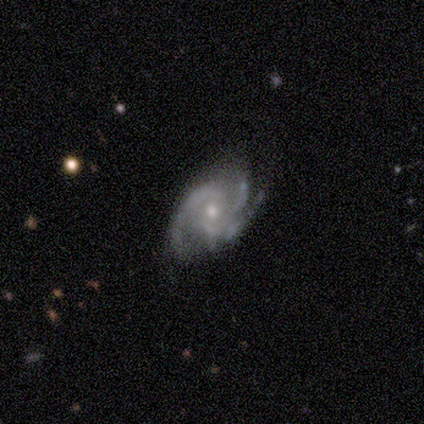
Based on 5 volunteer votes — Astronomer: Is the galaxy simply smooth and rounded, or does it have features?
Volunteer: featured or disk — 100%.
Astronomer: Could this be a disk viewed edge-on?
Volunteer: no — 100%.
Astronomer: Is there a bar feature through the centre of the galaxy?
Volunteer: weak — 60%.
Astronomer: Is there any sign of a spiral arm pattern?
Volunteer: yes — 100%.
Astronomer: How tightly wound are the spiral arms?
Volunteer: tight — 40%, tied with loose at 40%.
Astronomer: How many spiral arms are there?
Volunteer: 2 — 40%, tied with 3 at 40%.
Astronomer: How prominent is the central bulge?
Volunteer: moderate — 60% (runner-up: small, 40%).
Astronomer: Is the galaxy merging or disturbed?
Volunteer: minor disturbance — 60% (runner-up: none, 40%).